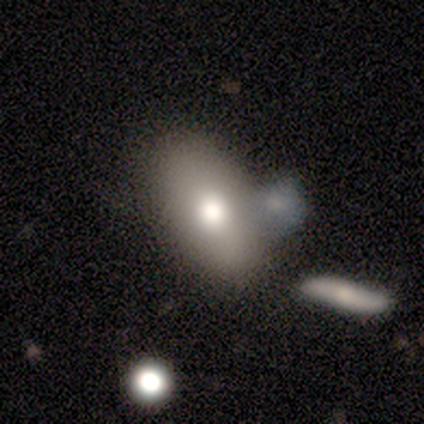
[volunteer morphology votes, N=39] Smooth or featured?
  - smooth: 82% *
  - featured or disk: 10%
  - star or artifact: 8%
How rounded?
  - in between: 91% *
  - round: 6%
  - cigar-shaped: 3%
Merging?
  - none: 53% *
  - merger: 28%
  - minor disturbance: 17%
  - major disturbance: 3%